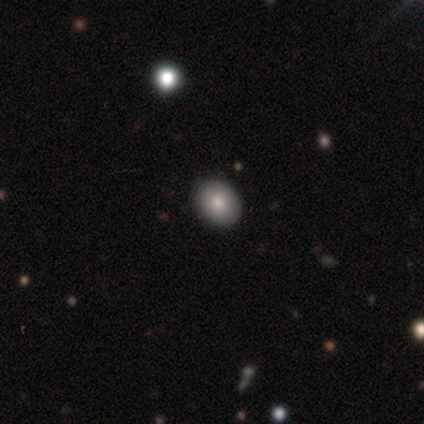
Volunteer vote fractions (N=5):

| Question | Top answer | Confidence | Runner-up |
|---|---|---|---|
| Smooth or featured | smooth | 80% | star or artifact (20%) |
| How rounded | round | 50% | tied: in between (50%) |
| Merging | none | 100% | — |